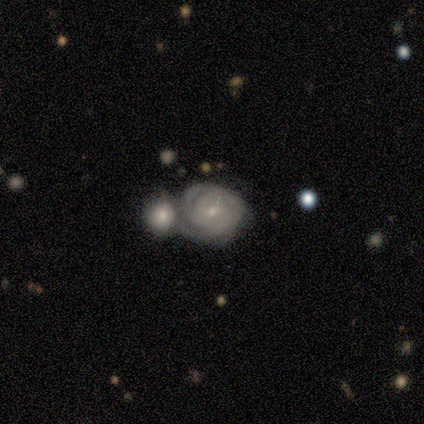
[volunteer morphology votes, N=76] featured or disk 63%, smooth 30%, star or artifact 7%. Down the decision tree: edge-on disk — no (100%); bar — no (71%); spiral arms — yes (79%); spiral arm count — can't tell (58%); spiral winding — tight (84%); bulge size — small (65%); merging — merger (63%).